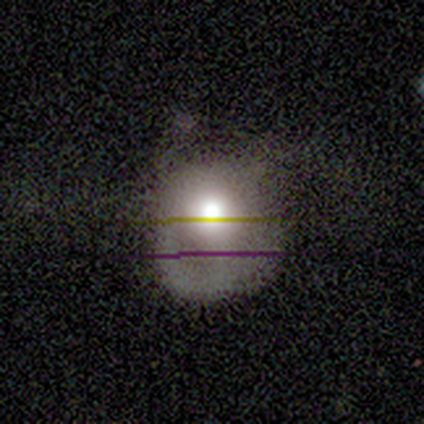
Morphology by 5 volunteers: A smooth galaxy with no disk features (40%, tied with featured or disk) that is round (50%, tied with in between). Merging: major disturbance (50%).